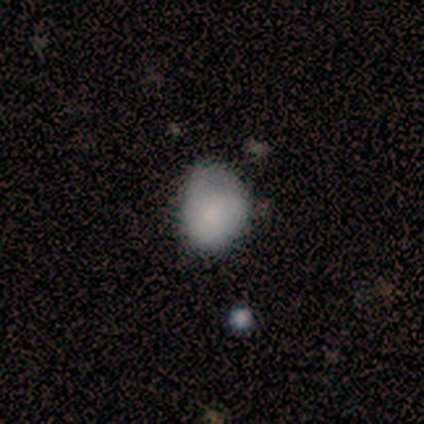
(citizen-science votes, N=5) Q: Smooth or featured?
A: smooth (100%)
Q: How rounded?
A: in between (60%); runner-up: round (40%)
Q: Merging?
A: none (60%); runner-up: minor disturbance (40%)